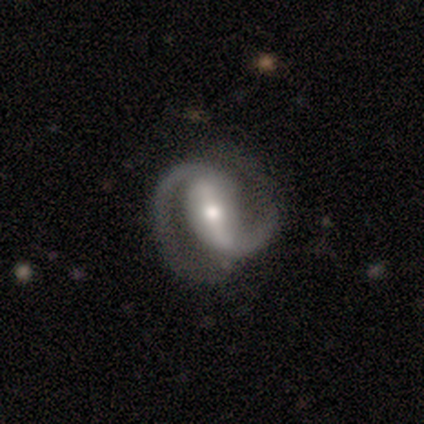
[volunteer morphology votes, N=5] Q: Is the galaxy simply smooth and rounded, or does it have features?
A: featured or disk — 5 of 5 (100%).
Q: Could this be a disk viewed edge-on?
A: no — 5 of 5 (100%).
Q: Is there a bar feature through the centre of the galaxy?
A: strong — 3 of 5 (60%).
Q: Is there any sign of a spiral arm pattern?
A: yes — 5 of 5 (100%).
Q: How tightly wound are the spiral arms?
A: medium — 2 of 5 (40%, tied with loose).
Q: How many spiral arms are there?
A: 2 — 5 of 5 (100%).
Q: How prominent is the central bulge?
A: moderate — 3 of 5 (60%).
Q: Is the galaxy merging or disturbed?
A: none — 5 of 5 (100%).